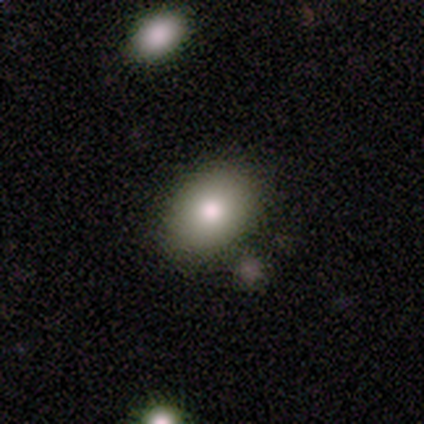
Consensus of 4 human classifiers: A smooth galaxy with no disk features (75%) that is in between round and cigar-shaped (67%). Merging: none (100%).